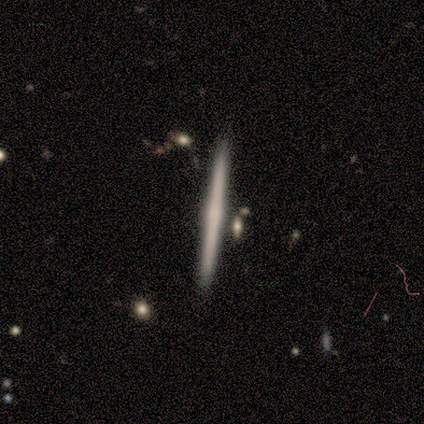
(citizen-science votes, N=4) Smooth or featured: featured or disk — 75% (smooth — 25%)
Edge-on disk: yes — 100%
Edge-on bulge: none — 67% (boxy — 33%)
Merging: none — 100%